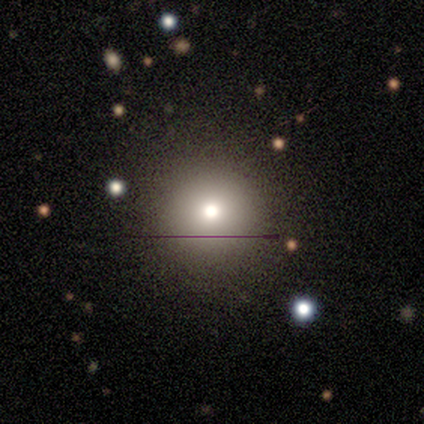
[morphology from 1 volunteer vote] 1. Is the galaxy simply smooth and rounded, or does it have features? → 100% smooth, 0% featured or disk, 0% star or artifact.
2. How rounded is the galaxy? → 100% round, 0% in between, 0% cigar-shaped.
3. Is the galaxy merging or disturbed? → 100% none, 0% minor disturbance, 0% major disturbance, 0% merger.